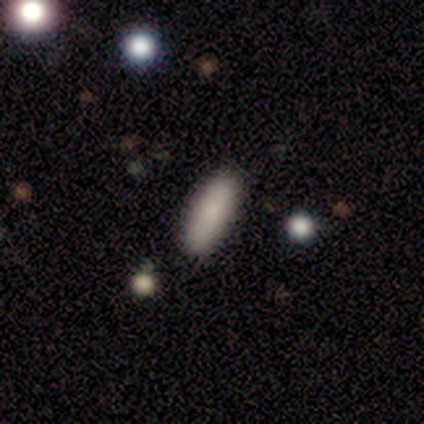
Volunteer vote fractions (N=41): Smooth or featured: smooth — 73% (featured or disk — 20%)
How rounded: cigar-shaped — 50% (in between — 47%)
Merging: none — 92% (minor disturbance — 8%)